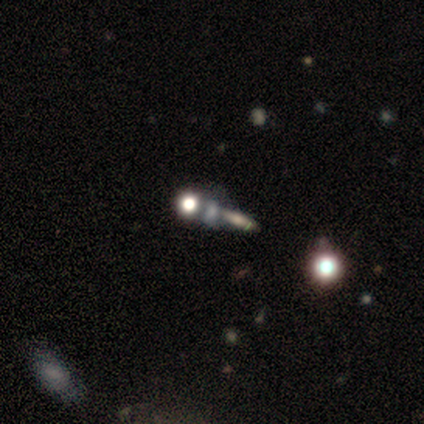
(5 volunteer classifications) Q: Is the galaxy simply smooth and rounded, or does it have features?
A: smooth — 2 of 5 (40%, tied with featured or disk).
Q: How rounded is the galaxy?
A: round — 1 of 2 (50%, tied with cigar-shaped).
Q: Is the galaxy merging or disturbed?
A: none — 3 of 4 (75%).